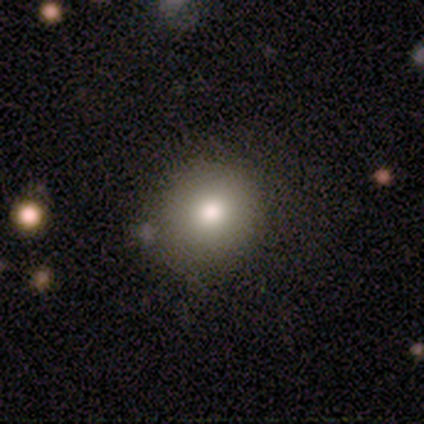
This is clearly a smooth galaxy (86%). How rounded: clearly round (100%). Merging: likely none (67%).